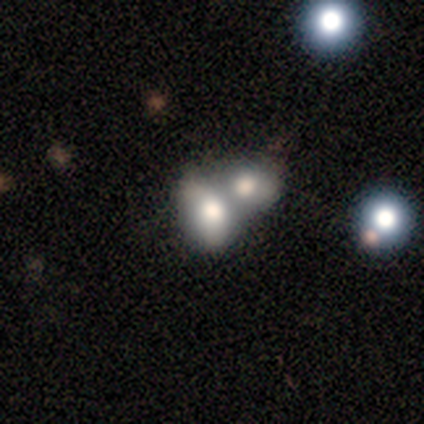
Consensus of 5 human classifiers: Q: Smooth or featured?
A: smooth (40%); tied with: star or artifact (40%)
Q: How rounded?
A: in between (100%)
Q: Merging?
A: merger (100%)